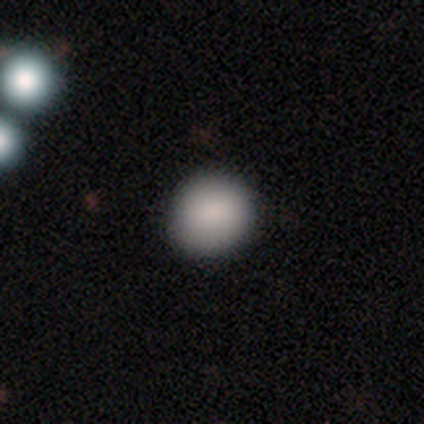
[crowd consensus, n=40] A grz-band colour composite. It shows a smooth galaxy with no disk features (92%) that is round (95%). Merging: none (95%).